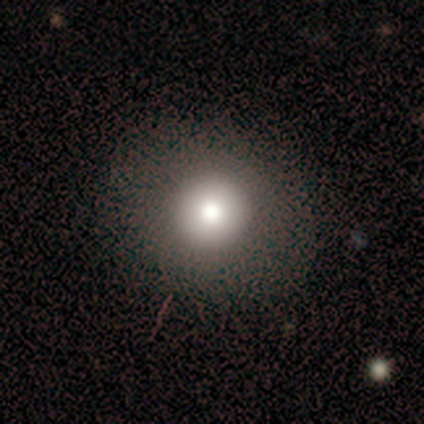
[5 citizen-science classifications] A smooth galaxy with no disk features (80%) that is round (100%). Merging: none (100%).